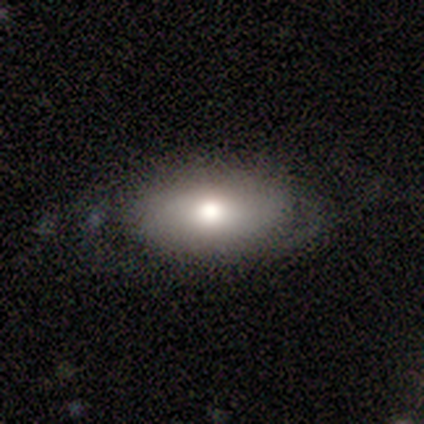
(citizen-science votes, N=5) Q: Smooth or featured?
A: smooth (60%); runner-up: featured or disk (40%)
Q: How rounded?
A: in between (67%); runner-up: round (33%)
Q: Merging?
A: none (60%); runner-up: major disturbance (40%)